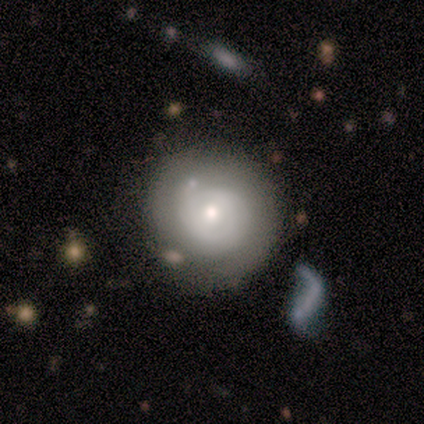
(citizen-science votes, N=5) Smooth or featured: featured or disk — 60% (smooth — 40%)
Edge-on disk: no — 100%
Bar: no — 67% (weak — 33%)
Spiral arms: yes — 67% (no — 33%)
Spiral winding: tight — 50% (tied with medium — 50%)
Spiral arm count: 2 — 50% (tied with can't tell — 50%)
Bulge size: moderate — 67% (small — 33%)
Merging: none — 40% (tied with major disturbance — 40%)